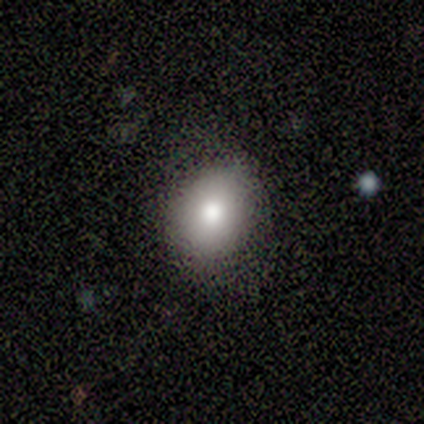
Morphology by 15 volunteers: smooth_or_featured: smooth (p=0.67) [alt: featured or disk p=0.27]
how_rounded: in between (p=1.00)
merging: none (p=0.86) [alt: minor disturbance p=0.07]